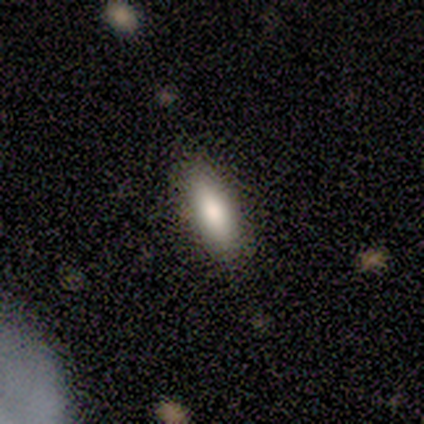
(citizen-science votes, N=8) Q: Smooth or featured?
A: smooth (100%)
Q: How rounded?
A: in between (75%); runner-up: round (12%)
Q: Merging?
A: none (75%); runner-up: minor disturbance (25%)